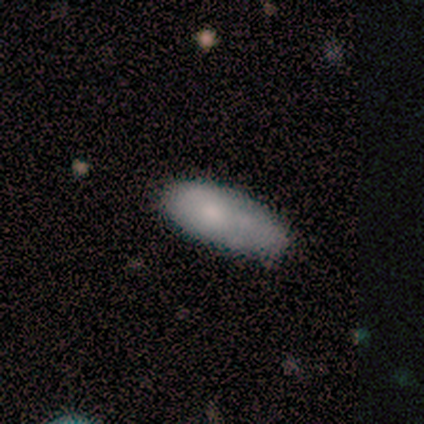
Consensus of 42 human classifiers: Overall: smooth (76%). How rounded: in between (75%). Merging: minor disturbance (48%; none 43%).